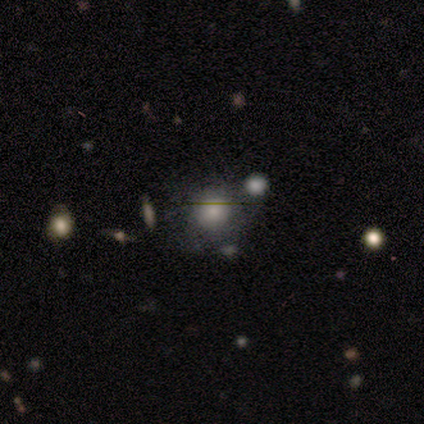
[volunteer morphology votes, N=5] smooth 60%, featured or disk 20%, star or artifact 20%. Down the decision tree: how rounded — round (100%); merging — minor disturbance (50%).